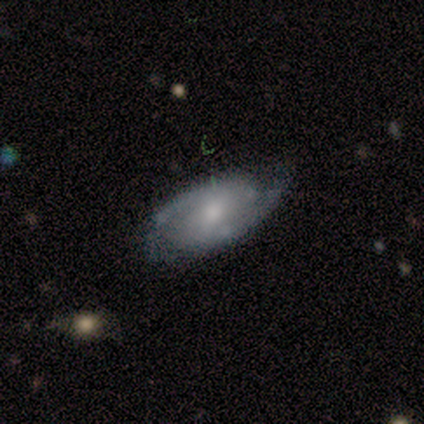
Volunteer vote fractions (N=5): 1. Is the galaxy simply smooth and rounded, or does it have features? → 60% smooth, 40% featured or disk, 0% star or artifact.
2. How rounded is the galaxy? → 100% in between, 0% round, 0% cigar-shaped.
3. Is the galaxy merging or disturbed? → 60% minor disturbance, 20% none, 20% major disturbance, 0% merger.